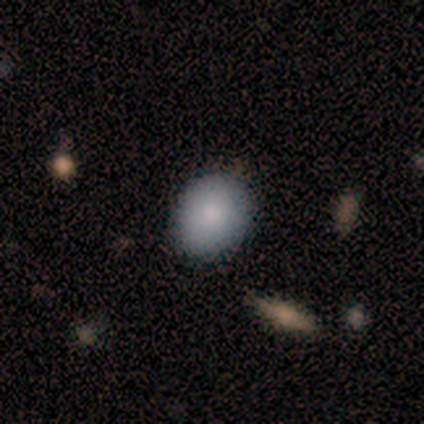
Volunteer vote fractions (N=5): A smooth galaxy with no disk features (100%) that is in between round and cigar-shaped (100%). Merging: none (80%).